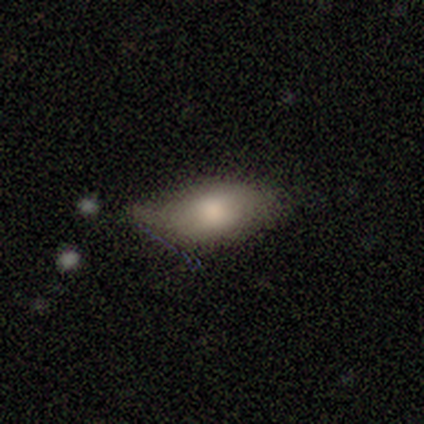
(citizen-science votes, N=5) Smooth or featured? 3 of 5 (60%) said smooth. How rounded? 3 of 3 (100%) said in between. Merging? 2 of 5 (40%, tied with major disturbance) said minor disturbance.